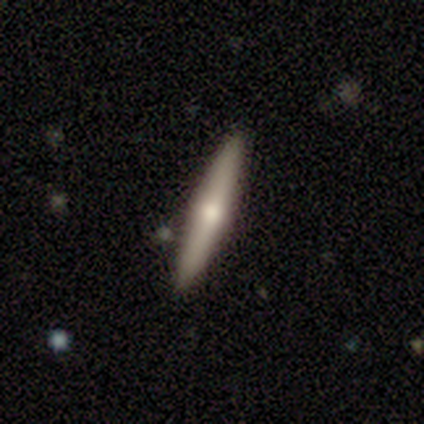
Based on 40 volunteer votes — featured or disk 48%, smooth 45%, star or artifact 8%. Down the decision tree: edge-on disk — yes (100%); edge-on bulge — rounded (89%); merging — none (95%).